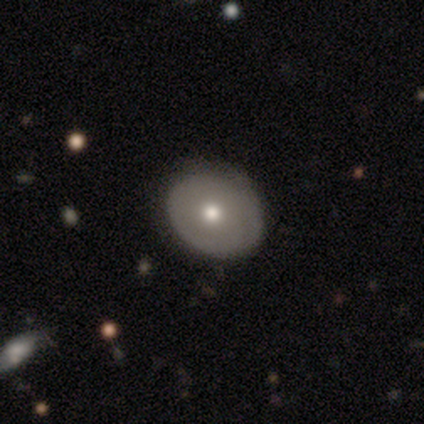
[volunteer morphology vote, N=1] Overall: smooth (100%). How rounded: round (100%). Merging: none (100%).